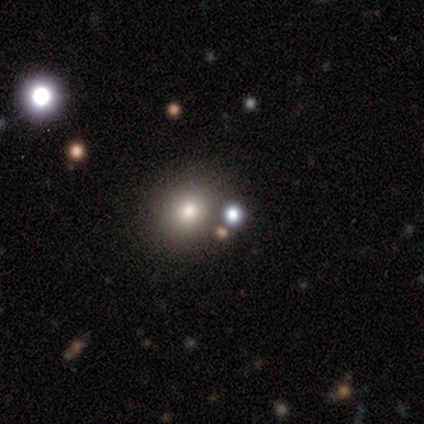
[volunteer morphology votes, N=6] Smooth or featured? 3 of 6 (50%) said smooth. How rounded? 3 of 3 (100%) said round. Merging? 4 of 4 (100%) said none.